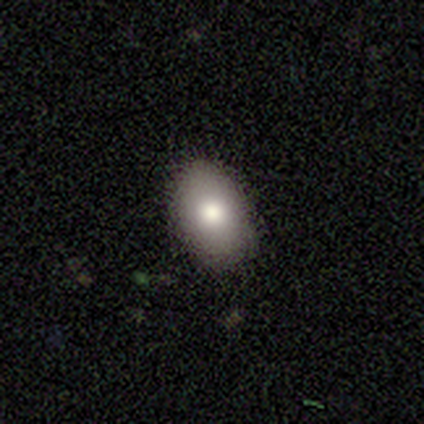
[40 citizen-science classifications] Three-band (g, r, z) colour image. It shows a smooth galaxy with no disk features (88%) that is in between round and cigar-shaped (89%). Merging: none (87%).